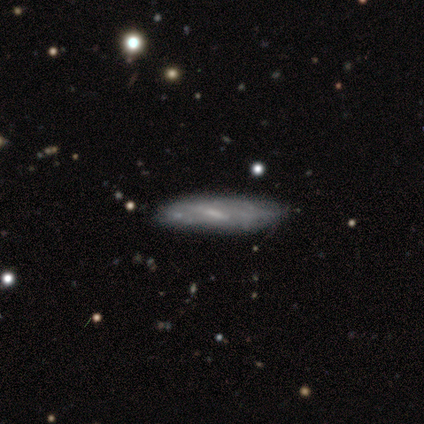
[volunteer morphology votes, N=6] type=smooth (50%, tied with featured or disk); roundness=cigar-shaped (100%); merging=none (67%).